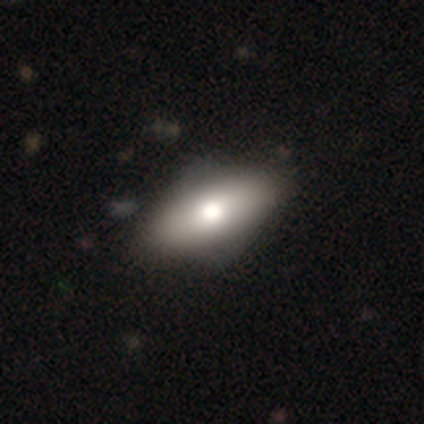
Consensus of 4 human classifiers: Volunteers were most divided on "how rounded" (2-way tie): in between: 50%, cigar-shaped: 50%, round: 0%. More confident: merging — none (100%); smooth or featured — smooth (50%).